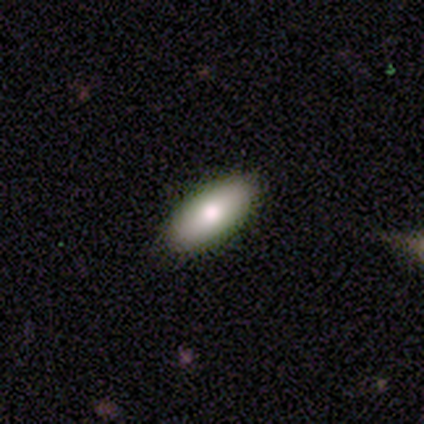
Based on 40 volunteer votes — This appears to be a smooth galaxy with no disk features (68%) that is in between round and cigar-shaped (93%). Merging: none (81%).